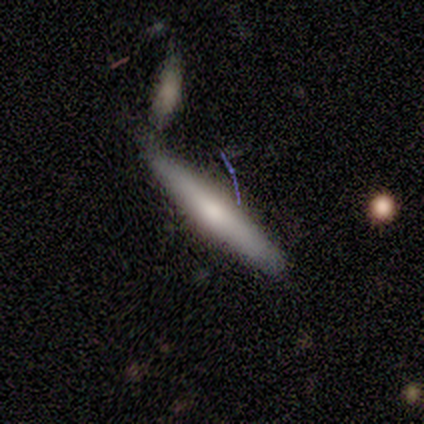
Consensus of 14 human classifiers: Smooth or featured: smooth — 64% (featured or disk — 29%)
How rounded: cigar-shaped — 100%
Merging: none — 62% (merger — 38%)